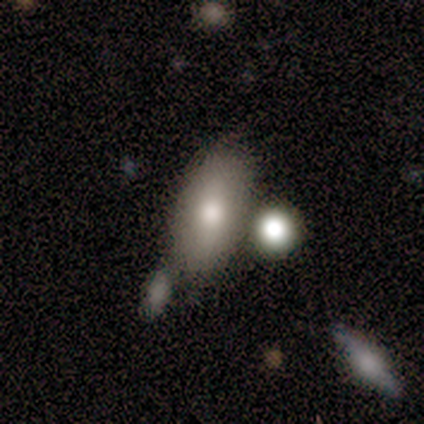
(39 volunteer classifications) This appears to be a smooth galaxy with no disk features (77%) that is in between round and cigar-shaped (83%). Merging: none (68%).